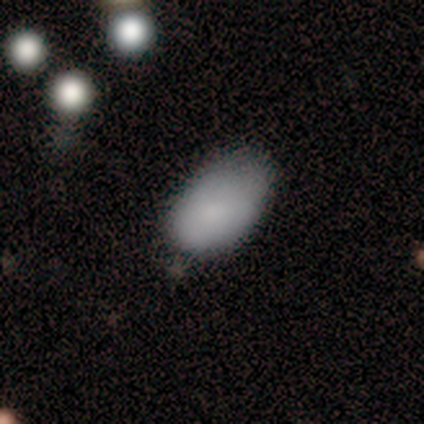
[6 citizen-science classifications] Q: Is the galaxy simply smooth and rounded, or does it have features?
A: smooth — 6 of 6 (100%).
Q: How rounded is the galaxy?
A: in between — 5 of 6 (83%).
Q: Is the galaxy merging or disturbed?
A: none — 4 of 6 (67%).